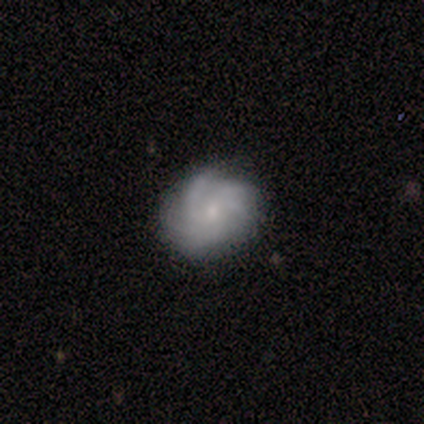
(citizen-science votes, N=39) Smooth or featured: featured or disk — 69% (smooth — 23%)
Edge-on disk: no — 96% (yes — 4%)
Bar: no — 65% (weak — 31%)
Spiral arms: yes — 96% (no — 4%)
Spiral winding: tight — 60% (medium — 28%)
Spiral arm count: can't tell — 36% (more than 4 — 28%)
Bulge size: small — 69% (moderate — 19%)
Merging: none — 75% (minor disturbance — 19%)